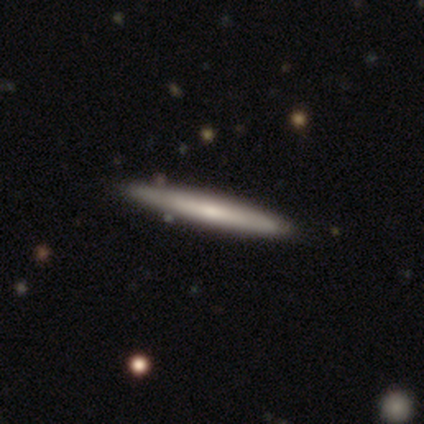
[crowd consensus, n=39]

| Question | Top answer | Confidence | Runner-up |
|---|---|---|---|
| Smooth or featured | featured or disk | 51% | smooth (49%) |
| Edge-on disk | yes | 100% | — |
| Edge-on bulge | rounded | 60% | none (35%) |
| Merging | none | 72% | minor disturbance (3%) |